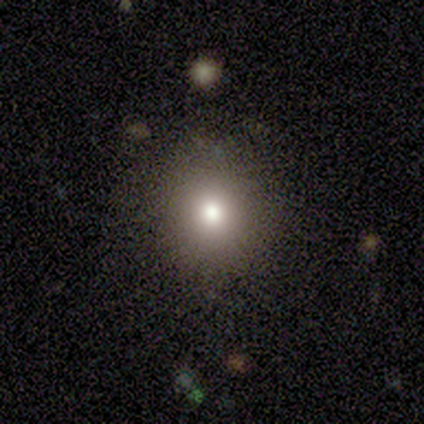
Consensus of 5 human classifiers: A smooth galaxy with no disk features (80%) that is round (100%).

Vote fractions:
- Smooth or featured? smooth: 80% / star or artifact: 20% / featured or disk: 0%
- How rounded? round: 100% / in between: 0% / cigar-shaped: 0%
- Merging? none: 100% / minor disturbance: 0% / major disturbance: 0% / merger: 0%